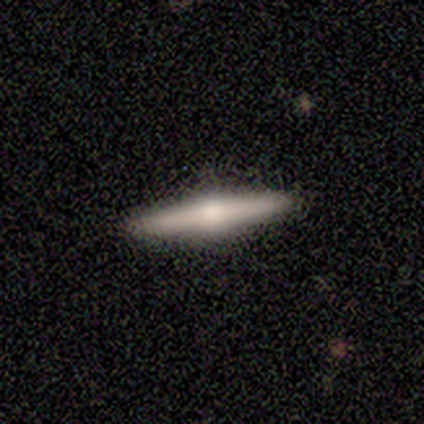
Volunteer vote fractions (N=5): Smooth or featured? 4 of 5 (80%) said featured or disk. Edge-on disk? 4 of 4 (100%) said yes. Edge-on bulge? 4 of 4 (100%) said rounded. Merging? 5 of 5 (100%) said none.